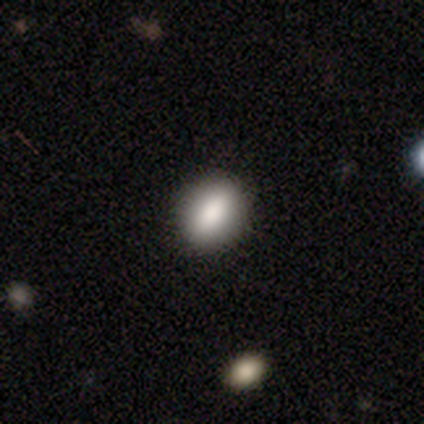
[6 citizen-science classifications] smooth-or-featured: smooth: 83% | featured or disk: 17% | star or artifact: 0%
  how-rounded: in between: 100% | round: 0% | cigar-shaped: 0%
  merging: none: 83% | minor disturbance: 17% | major disturbance: 0% | merger: 0%